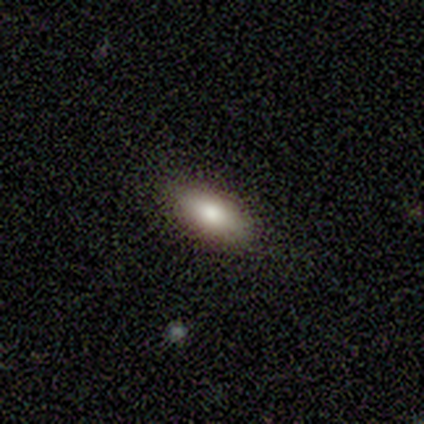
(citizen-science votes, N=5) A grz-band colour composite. It shows a smooth galaxy with no disk features (100%) that is in between round and cigar-shaped (100%). Merging: none (100%).